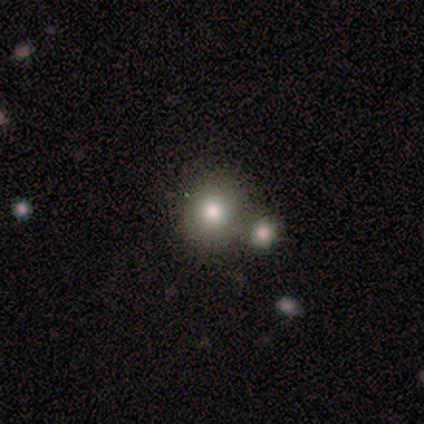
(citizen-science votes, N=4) Smooth or featured: smooth — 100%
How rounded: round — 100%
Merging: none — 100%